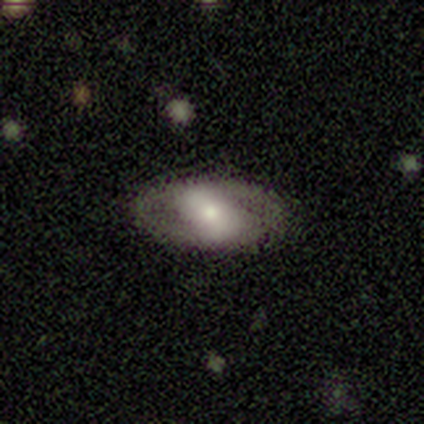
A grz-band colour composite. It shows a featured or disk galaxy (75%) with a weak bar (50%, tied with no), 2 (100%) tight (50%, tied with medium) spiral arms (100%) and a moderate central bulge (50%, tied with small). Merging: none (100%).